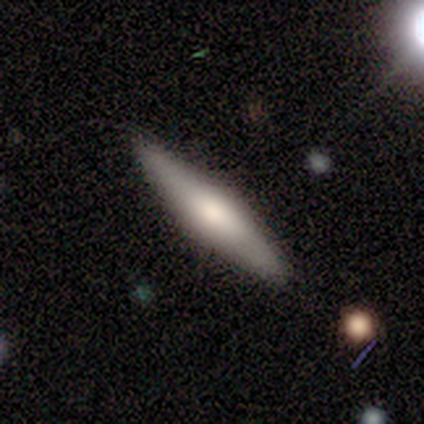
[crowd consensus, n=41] Overall: featured or disk (54%; smooth 34%). Edge-on disk: yes (95%). Edge-on bulge: rounded (76%). Merging: none (89%).